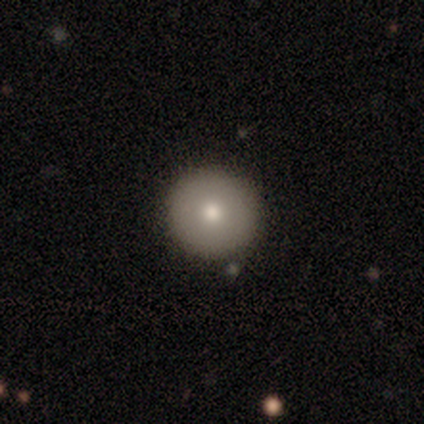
A featured or disk galaxy (100%) with no bar (100%), tight (100%) spiral arms (100%) and a moderate central bulge (100%).

Vote fractions:
- Smooth or featured? featured or disk: 100% / smooth: 0% / star or artifact: 0%
- Edge-on disk? no: 100% / yes: 0%
- Bar? no: 100% / strong: 0% / weak: 0%
- Spiral arms? yes: 100% / no: 0%
- Spiral winding? tight: 100% / medium: 0% / loose: 0%
- Spiral arm count? can't tell: 100% / 1: 0% / 2: 0% / 3: 0% / 4: 0% / more than 4: 0%
- Bulge size? moderate: 100% / dominant: 0% / large: 0% / small: 0% / none: 0%
- Merging? none: 100% / minor disturbance: 0% / major disturbance: 0% / merger: 0%